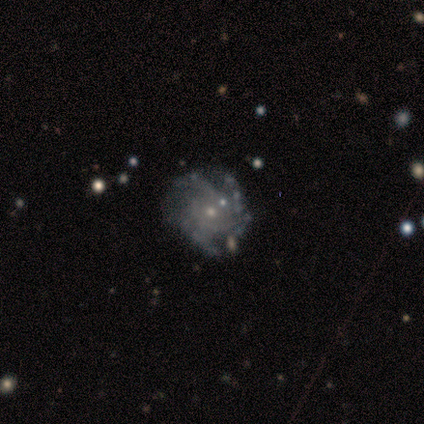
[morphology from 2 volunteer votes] This is possibly a featured or disk galaxy (50%, tied with star or artifact). It is clearly not viewed edge-on (100%). Bar: clearly no (100%). Spiral arm pattern: clearly no (100%). Central bulge: clearly small (100%). Merging: clearly none (100%).